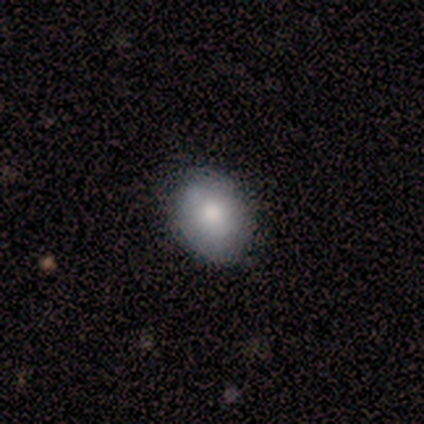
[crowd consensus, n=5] A smooth galaxy with no disk features (60%) that is in between round and cigar-shaped (100%).

Vote fractions:
- Smooth or featured? smooth: 60% / featured or disk: 40% / star or artifact: 0%
- How rounded? in between: 100% / round: 0% / cigar-shaped: 0%
- Merging? none: 80% / minor disturbance: 20% / major disturbance: 0% / merger: 0%